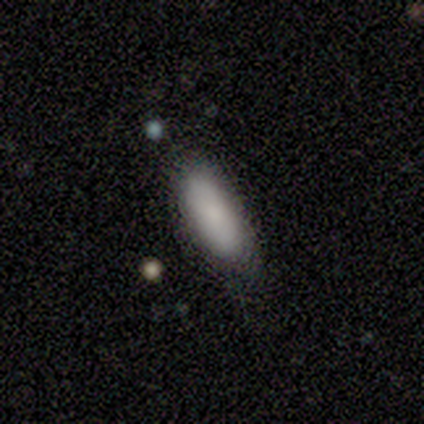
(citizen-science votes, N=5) smooth 80%, star or artifact 20%, featured or disk 0%. Down the decision tree: how rounded — in between (75%); merging — none (75%).